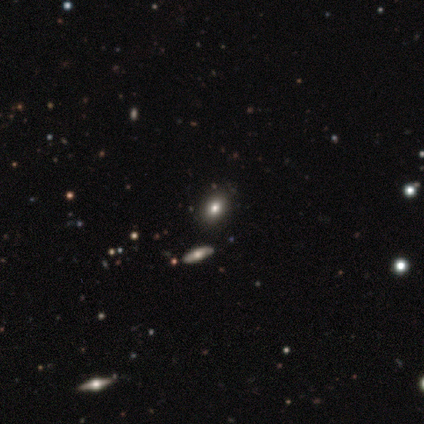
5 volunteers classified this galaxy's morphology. Smooth or featured?
  - smooth: 60% *
  - star or artifact: 40%
  - featured or disk: 0%
How rounded?
  - in between: 67% *
  - round: 33%
  - cigar-shaped: 0%
Merging?
  - none: 100% *
  - minor disturbance: 0%
  - major disturbance: 0%
  - merger: 0%